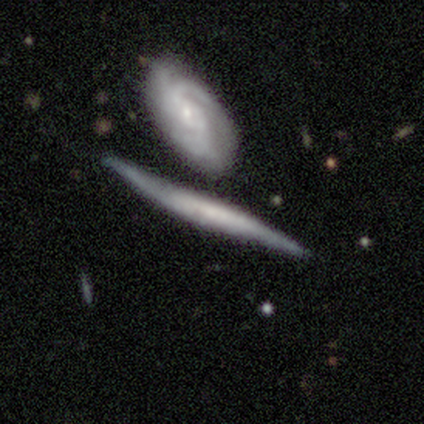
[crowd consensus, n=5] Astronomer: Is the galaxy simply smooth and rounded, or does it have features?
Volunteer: smooth — 60% (runner-up: featured or disk, 40%).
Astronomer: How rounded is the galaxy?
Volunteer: cigar-shaped — 100%.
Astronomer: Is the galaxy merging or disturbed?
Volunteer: none — 40%, tied with merger at 40%.